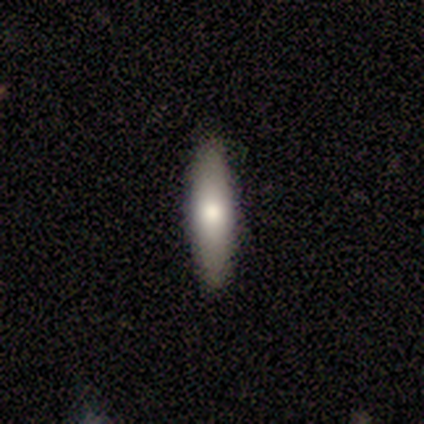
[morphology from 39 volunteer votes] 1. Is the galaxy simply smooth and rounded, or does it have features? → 82% smooth, 15% featured or disk, 3% star or artifact.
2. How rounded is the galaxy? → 72% cigar-shaped, 28% in between, 0% round.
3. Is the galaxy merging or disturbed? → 95% none, 3% minor disturbance, 3% merger, 0% major disturbance.